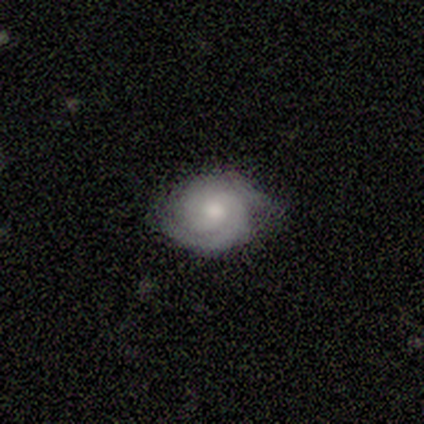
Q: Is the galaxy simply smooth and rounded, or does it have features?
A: featured or disk — 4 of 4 (100%).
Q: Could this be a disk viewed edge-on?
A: no — 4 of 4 (100%).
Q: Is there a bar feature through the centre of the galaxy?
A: no — 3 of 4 (75%).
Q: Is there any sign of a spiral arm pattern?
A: yes — 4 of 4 (100%).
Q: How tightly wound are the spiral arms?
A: tight — 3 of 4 (75%).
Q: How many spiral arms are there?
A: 2 — 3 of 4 (75%).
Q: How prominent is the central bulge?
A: moderate — 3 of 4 (75%).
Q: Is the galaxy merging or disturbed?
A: none — 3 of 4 (75%).